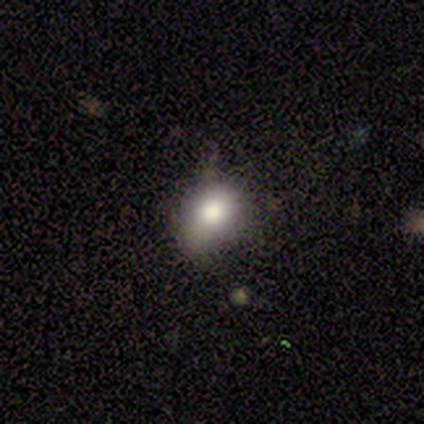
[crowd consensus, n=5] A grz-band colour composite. It shows a smooth galaxy with no disk features (80%) that is in between round and cigar-shaped (100%). Merging: none (50%, tied with minor disturbance).